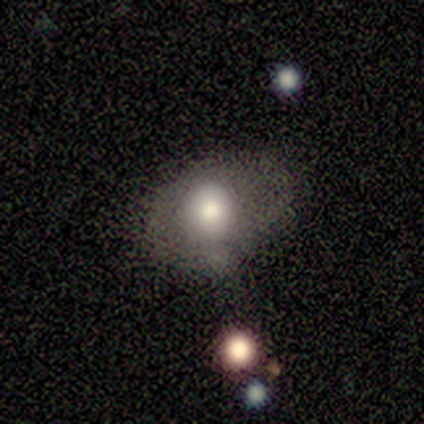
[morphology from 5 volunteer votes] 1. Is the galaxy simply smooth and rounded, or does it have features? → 100% smooth, 0% featured or disk, 0% star or artifact.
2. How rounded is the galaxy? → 60% round, 40% in between, 0% cigar-shaped.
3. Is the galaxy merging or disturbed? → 80% none, 20% major disturbance, 0% minor disturbance, 0% merger.